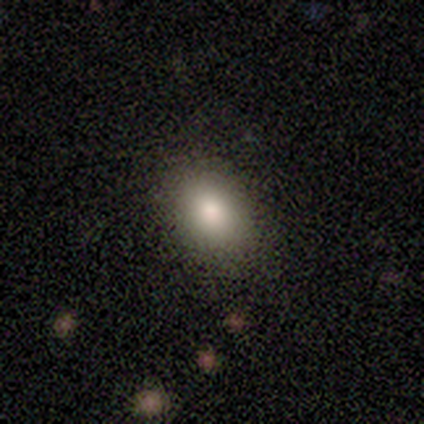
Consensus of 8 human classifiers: Volunteers were most divided on "smooth or featured": smooth: 62%, featured or disk: 25%, star or artifact: 12%. More confident: merging — none (86%); how rounded — in between (80%).